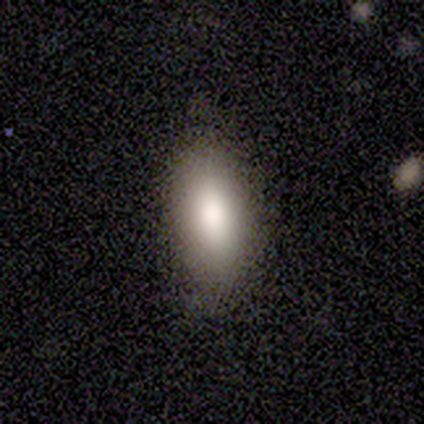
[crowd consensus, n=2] Overall: smooth (100%). How rounded: in between (100%). Merging: none (100%).